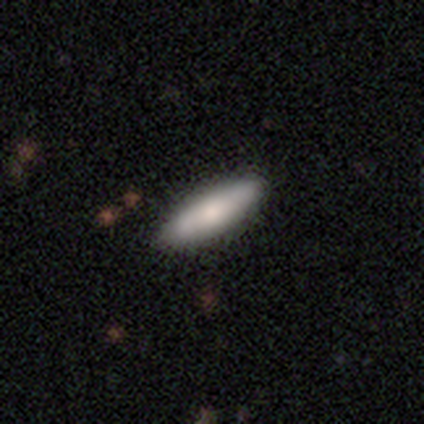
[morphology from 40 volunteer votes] smooth-or-featured: smooth: 68% | featured or disk: 30% | star or artifact: 2%
  how-rounded: cigar-shaped: 52% | in between: 48% | round: 0%
  merging: none: 69% | minor disturbance: 10% | major disturbance: 0% | merger: 0%